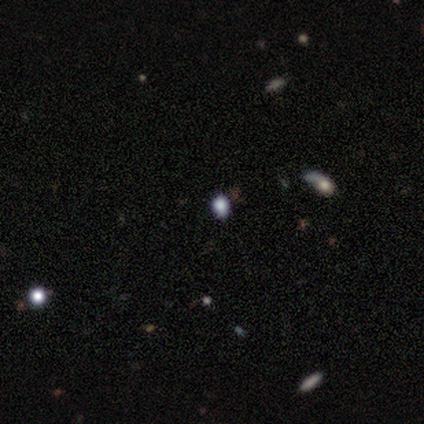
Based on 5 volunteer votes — This appears to be a smooth galaxy with no disk features (80%) that is round (50%, tied with in between). Merging: none (50%, tied with minor disturbance).